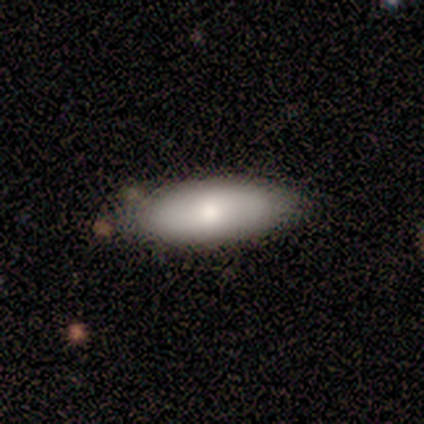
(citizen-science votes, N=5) smooth-or-featured: smooth: 80% | featured or disk: 20% | star or artifact: 0%
  how-rounded: in between: 100% | round: 0% | cigar-shaped: 0%
  merging: none: 100% | minor disturbance: 0% | major disturbance: 0% | merger: 0%